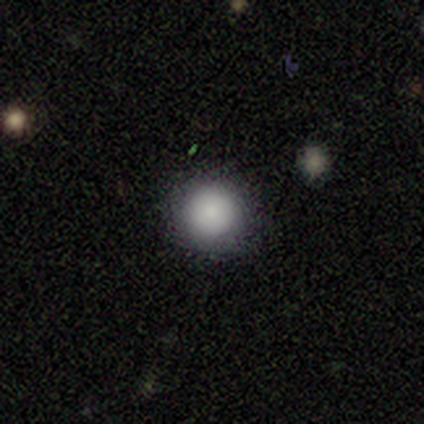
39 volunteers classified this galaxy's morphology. smooth_or_featured: smooth (p=0.87) [alt: star or artifact p=0.08]
how_rounded: round (p=0.97) [alt: in between p=0.03]
merging: none (p=0.86) [alt: minor disturbance p=0.11]